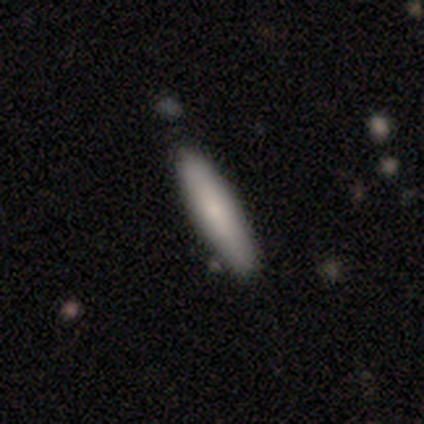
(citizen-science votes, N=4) Smooth or featured: smooth — 100%
How rounded: in between — 75% (cigar-shaped — 25%)
Merging: none — 100%